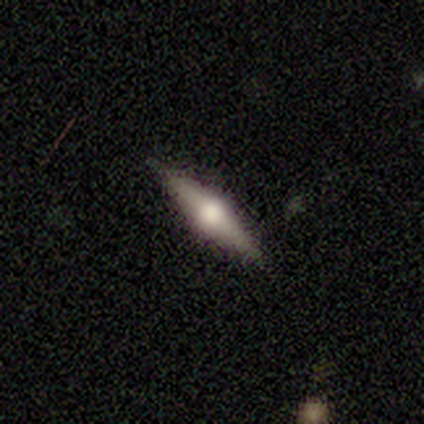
Morphology: type=featured or disk (80%); edge-on=yes (100%); edge-on bulge=rounded (100%); merging=none (100%).